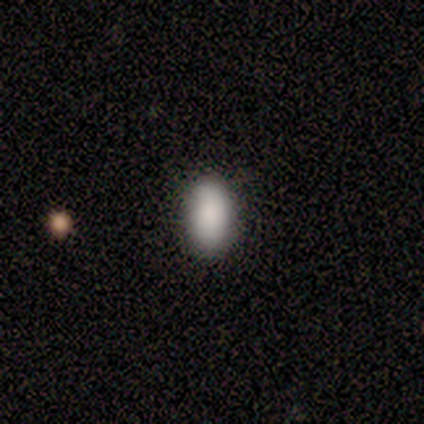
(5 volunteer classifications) smooth_or_featured: smooth (p=1.00)
how_rounded: in between (p=0.80) [alt: round p=0.20]
merging: none (p=1.00)